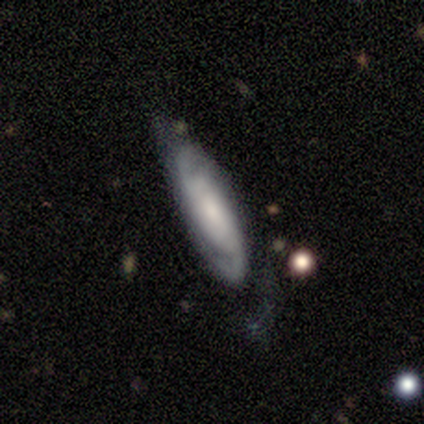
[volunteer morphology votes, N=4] Smooth or featured? featured or disk (100%)
Edge-on disk? no (100%)
Bar? no (75%)
Spiral arms? yes (100%)
Spiral winding? tight (50%)
Spiral arm count? 2 (50%, tied with can't tell)
Bulge size? small (50%)
Merging? none (100%)